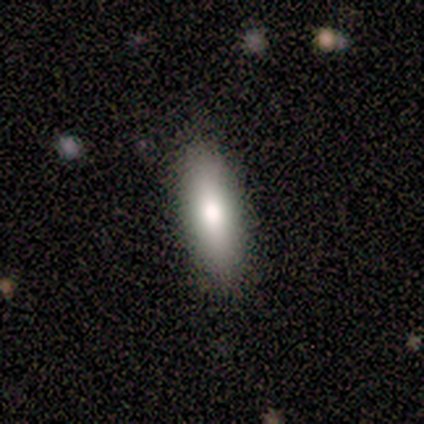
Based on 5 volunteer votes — Overall: smooth (100%). How rounded: in between (80%). Merging: none (60%; minor disturbance 40%).